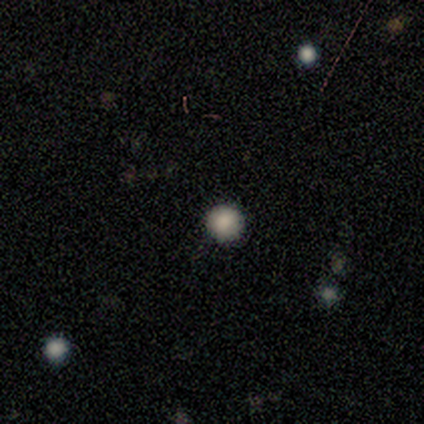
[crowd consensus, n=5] Consensus on every question: smooth or featured — smooth (100%); how rounded — round (100%); merging — none (100%).